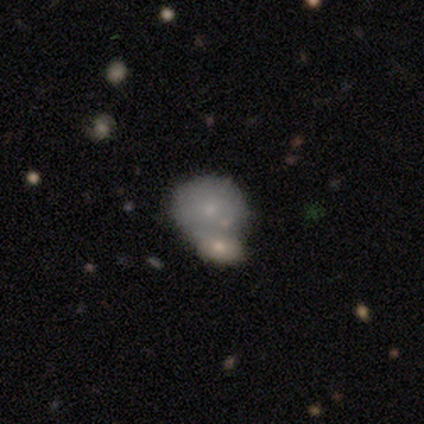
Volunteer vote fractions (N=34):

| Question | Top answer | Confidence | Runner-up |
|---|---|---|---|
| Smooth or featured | smooth | 68% | featured or disk (24%) |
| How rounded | round | 87% | in between (13%) |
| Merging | merger | 52% | — |